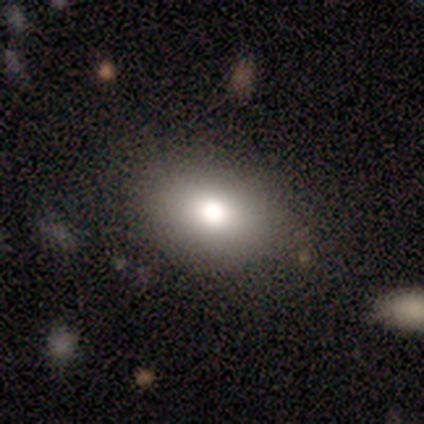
Q: Smooth or featured?
A: smooth (68%); runner-up: featured or disk (18%)
Q: How rounded?
A: in between (83%); runner-up: round (17%)
Q: Merging?
A: none (87%); runner-up: minor disturbance (8%)